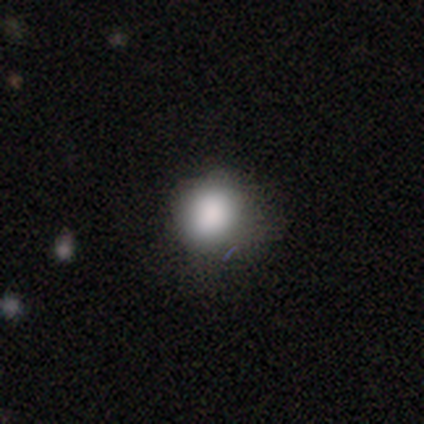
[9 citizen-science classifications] Q: Smooth or featured?
A: smooth (100%)
Q: How rounded?
A: round (56%); runner-up: in between (44%)
Q: Merging?
A: none (78%); runner-up: minor disturbance (11%)